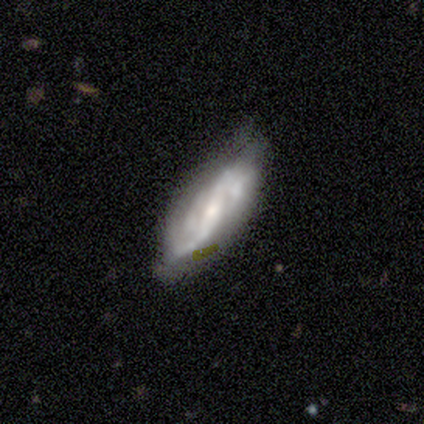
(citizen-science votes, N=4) A featured or disk galaxy (75%) with no bar (100%), 2 (50%, tied with 3) tight (100%) spiral arms (100%) and a small central bulge (100%).

Vote fractions:
- Smooth or featured? featured or disk: 75% / star or artifact: 25% / smooth: 0%
- Edge-on disk? no: 67% / yes: 33%
- Bar? no: 100% / strong: 0% / weak: 0%
- Spiral arms? yes: 100% / no: 0%
- Spiral winding? tight: 100% / medium: 0% / loose: 0%
- Spiral arm count? 2: 50% (tied) / 3: 50% (tied) / 1: 0% / 4: 0% / more than 4: 0% / can't tell: 0%
- Bulge size? small: 100% / dominant: 0% / large: 0% / moderate: 0% / none: 0%
- Merging? none: 100% / minor disturbance: 0% / major disturbance: 0% / merger: 0%